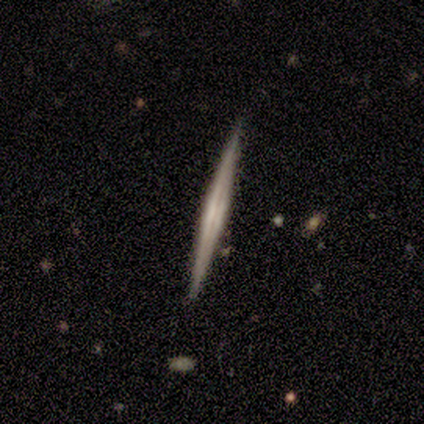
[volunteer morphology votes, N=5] This appears to be a featured or disk galaxy (80%) viewed edge-on (100%) with a boxy central bulge (75%). Merging: none (100%).